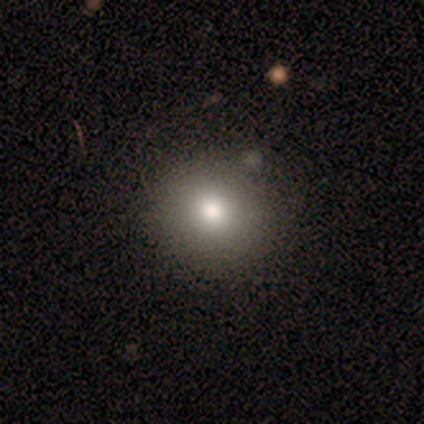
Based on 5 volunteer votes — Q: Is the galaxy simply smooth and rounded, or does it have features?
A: smooth — 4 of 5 (80%).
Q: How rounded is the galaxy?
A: round — 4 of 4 (100%).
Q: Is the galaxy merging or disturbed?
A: none — 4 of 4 (100%).